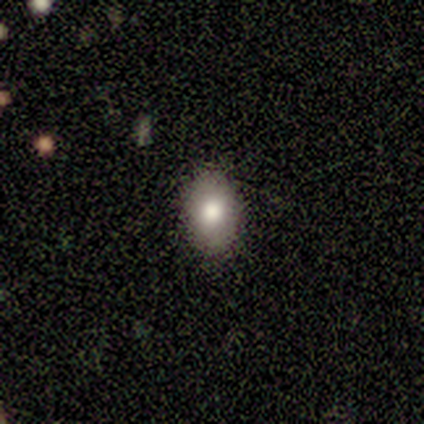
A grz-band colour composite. It shows a smooth galaxy with no disk features (81%) that is in between round and cigar-shaped (77%). Merging: none (100%).